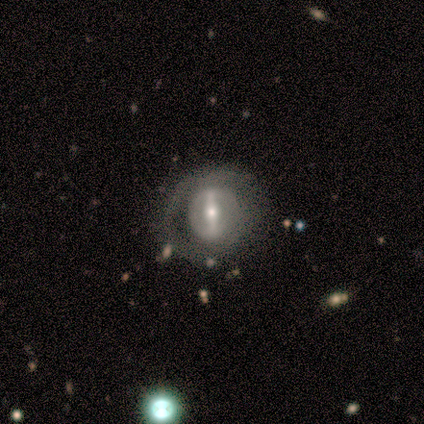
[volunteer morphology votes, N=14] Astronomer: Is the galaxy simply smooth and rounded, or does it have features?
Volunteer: featured or disk — 79%.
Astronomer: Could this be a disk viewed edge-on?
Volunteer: no — 91%.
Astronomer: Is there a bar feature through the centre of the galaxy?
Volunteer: strong — 70%.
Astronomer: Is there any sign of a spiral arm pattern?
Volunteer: no — 90%.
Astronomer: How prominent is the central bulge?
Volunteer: small — 60%.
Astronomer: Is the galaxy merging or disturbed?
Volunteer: none — 71%.